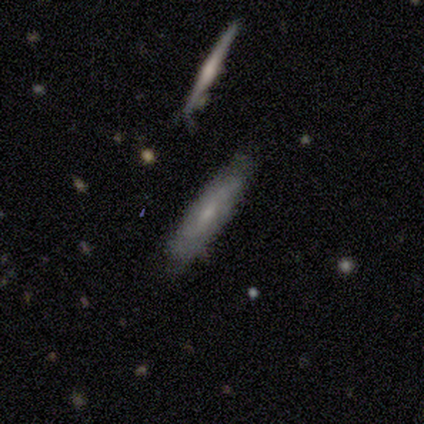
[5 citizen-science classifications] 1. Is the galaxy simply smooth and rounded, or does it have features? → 60% featured or disk, 40% smooth, 0% star or artifact.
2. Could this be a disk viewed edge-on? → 67% no, 33% yes.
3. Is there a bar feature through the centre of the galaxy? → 50% weak (tied), 50% no (tied), 0% strong.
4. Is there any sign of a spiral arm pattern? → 50% yes (tied), 50% no (tied).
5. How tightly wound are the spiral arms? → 100% medium, 0% tight, 0% loose.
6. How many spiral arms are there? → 100% can't tell, 0% 1, 0% 2, 0% 3, 0% 4, 0% more than 4.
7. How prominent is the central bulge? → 100% small, 0% dominant, 0% large, 0% moderate, 0% none.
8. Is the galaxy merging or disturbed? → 80% none, 20% minor disturbance, 0% major disturbance, 0% merger.